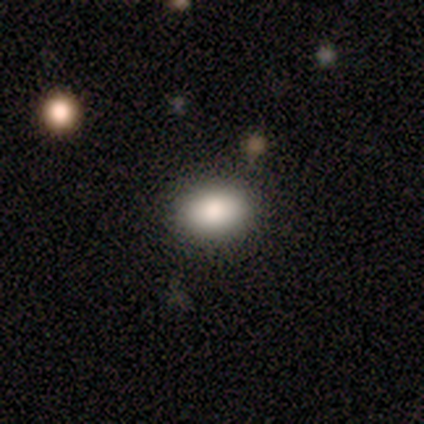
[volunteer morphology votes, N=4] Smooth or featured? 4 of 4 (100%) said smooth. How rounded? 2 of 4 (50%, tied with in between) said round. Merging? 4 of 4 (100%) said none.